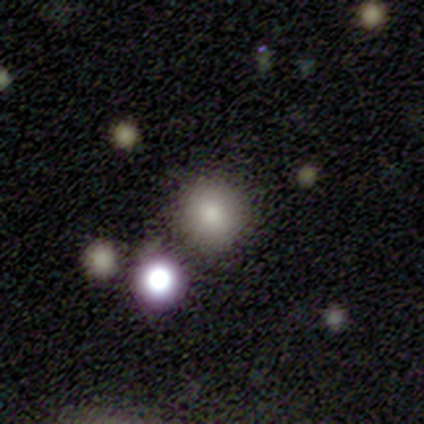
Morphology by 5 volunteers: A smooth galaxy with no disk features (60%) that is round (100%). Merging: none (100%).